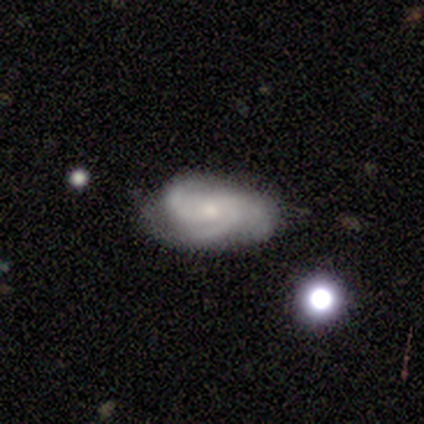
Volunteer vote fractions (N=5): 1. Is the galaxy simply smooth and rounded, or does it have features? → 60% featured or disk, 20% smooth, 20% star or artifact.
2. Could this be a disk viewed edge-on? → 100% no, 0% yes.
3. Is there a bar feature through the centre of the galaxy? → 100% no, 0% strong, 0% weak.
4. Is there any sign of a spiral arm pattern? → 67% yes, 33% no.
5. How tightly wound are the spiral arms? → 100% medium, 0% tight, 0% loose.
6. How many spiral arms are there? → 50% 2 (tied), 50% can't tell (tied), 0% 1, 0% 3, 0% 4, 0% more than 4.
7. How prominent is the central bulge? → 67% small, 33% moderate, 0% dominant, 0% large, 0% none.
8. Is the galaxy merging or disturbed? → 75% none, 25% major disturbance, 0% minor disturbance, 0% merger.